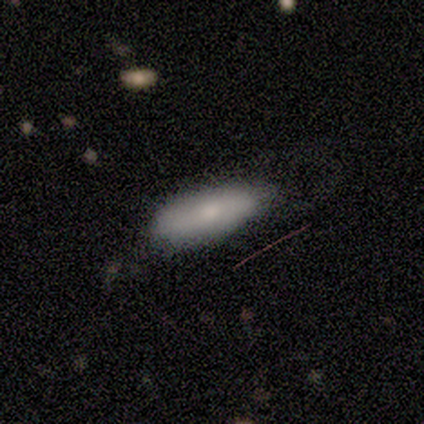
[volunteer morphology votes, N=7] Volunteers were most divided on "merging": minor disturbance: 57%, none: 29%, major disturbance: 14%, merger: 0%. More confident: smooth or featured — smooth (86%); how rounded — in between (83%).